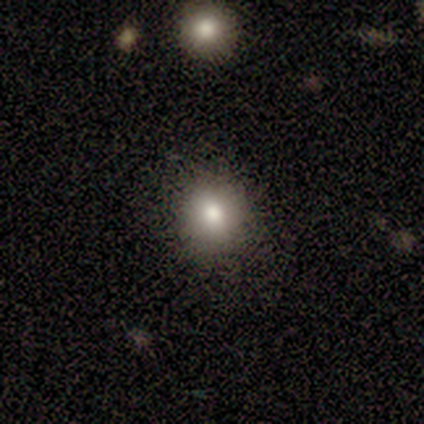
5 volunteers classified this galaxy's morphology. smooth_or_featured: smooth (p=0.80) [alt: star or artifact p=0.20]
how_rounded: round (p=1.00)
merging: none (p=1.00)